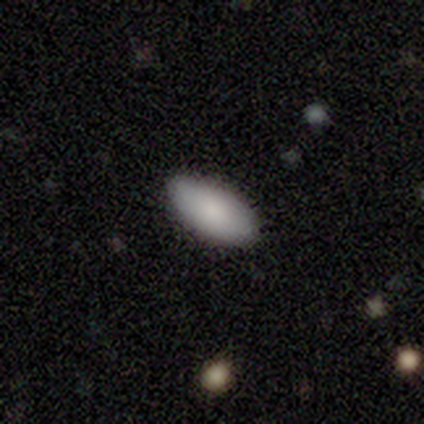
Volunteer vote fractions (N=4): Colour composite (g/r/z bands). It shows a smooth galaxy with no disk features (100%) that is in between round and cigar-shaped (100%). Merging: none (100%).